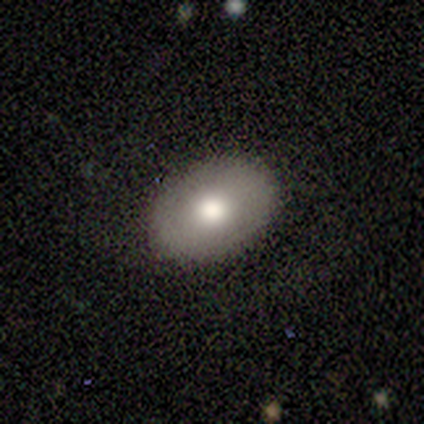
This is clearly a smooth galaxy (80%). How rounded: clearly in between (100%). Merging: clearly none (80%).